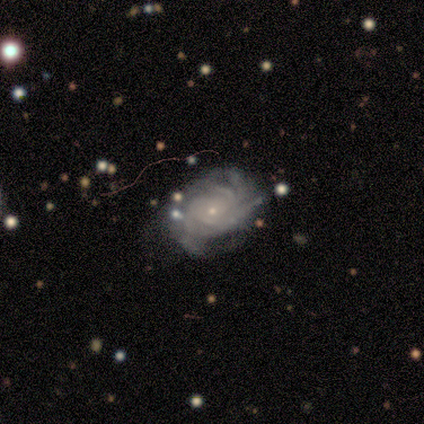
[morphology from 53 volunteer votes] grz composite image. It shows a featured or disk galaxy (83%) with no bar (93%), tight (70%) spiral arms (98%) and a small central bulge (91%). Merging: none (56%).